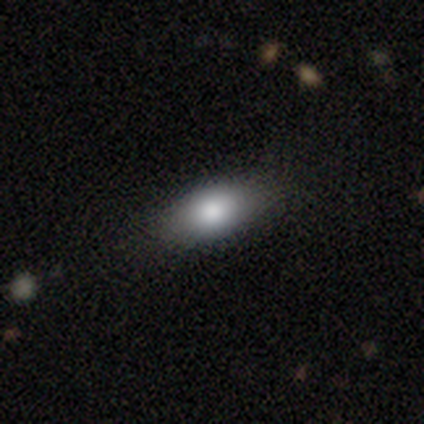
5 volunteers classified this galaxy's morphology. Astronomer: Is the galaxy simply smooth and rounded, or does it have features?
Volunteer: smooth — 100%.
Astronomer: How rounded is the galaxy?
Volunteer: in between — 100%.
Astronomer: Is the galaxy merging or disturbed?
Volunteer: none — 80%.